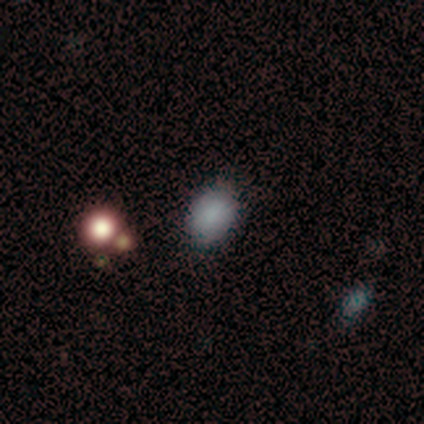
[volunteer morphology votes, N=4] smooth-or-featured: smooth: 75% | star or artifact: 25% | featured or disk: 0%
  how-rounded: round: 100% | in between: 0% | cigar-shaped: 0%
  merging: none: 67% | minor disturbance: 33% | major disturbance: 0% | merger: 0%